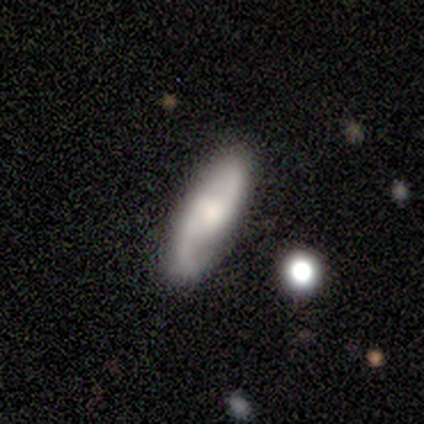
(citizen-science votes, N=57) Smooth or featured: featured or disk — 72% (smooth — 21%)
Edge-on disk: no — 93% (yes — 7%)
Bar: no — 55% (weak — 34%)
Spiral arms: yes — 97% (no — 3%)
Spiral winding: medium — 54% (loose — 41%)
Spiral arm count: 2 — 92% (1 — 8%)
Bulge size: moderate — 37% (small — 32%)
Merging: none — 79% (minor disturbance — 13%)